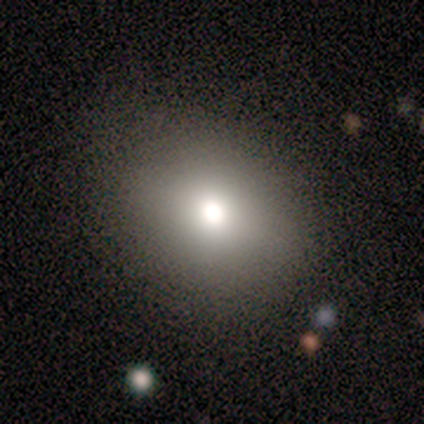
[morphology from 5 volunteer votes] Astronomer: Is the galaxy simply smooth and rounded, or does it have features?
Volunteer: smooth — 80%.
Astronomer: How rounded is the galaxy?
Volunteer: round — 75%.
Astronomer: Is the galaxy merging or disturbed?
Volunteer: none — 100%.